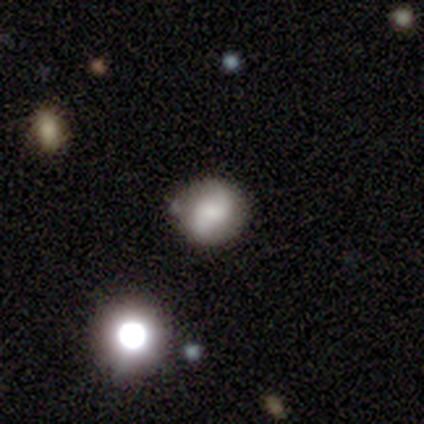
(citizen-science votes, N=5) Volunteers were most divided on "merging" (2-way tie): none: 50%, minor disturbance: 50%, major disturbance: 0%, merger: 0%. More confident: smooth or featured — smooth (80%); how rounded — round (75%).